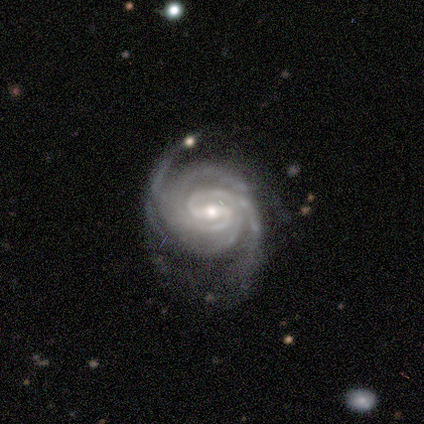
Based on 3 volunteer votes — Q: Smooth or featured?
A: featured or disk (100%)
Q: Edge-on disk?
A: no (100%)
Q: Bar?
A: strong (67%); runner-up: weak (33%)
Q: Spiral arms?
A: yes (100%)
Q: Spiral winding?
A: tight (100%)
Q: Spiral arm count?
A: 2 (100%)
Q: Bulge size?
A: moderate (67%); runner-up: small (33%)
Q: Merging?
A: none (67%); runner-up: minor disturbance (33%)